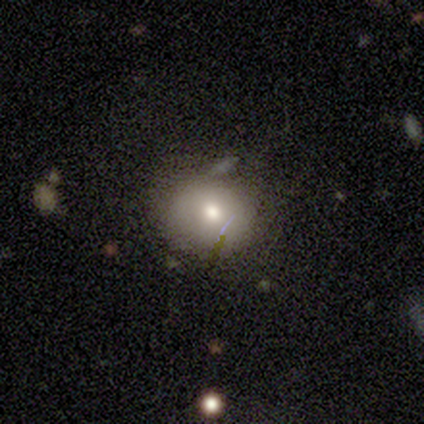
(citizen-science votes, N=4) Smooth or featured? 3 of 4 (75%) said smooth. How rounded? 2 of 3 (67%) said round. Merging? 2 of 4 (50%, tied with minor disturbance) said none.